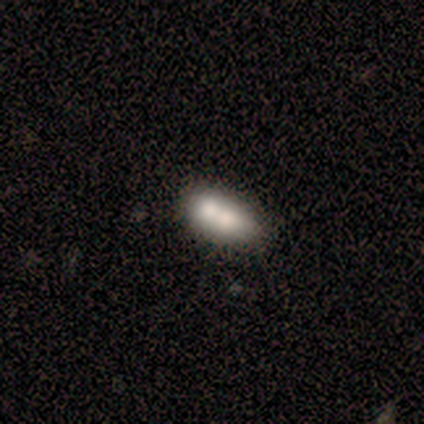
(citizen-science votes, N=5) Q: Smooth or featured?
A: smooth (80%); runner-up: featured or disk (20%)
Q: How rounded?
A: in between (100%)
Q: Merging?
A: merger (60%); runner-up: none (20%)